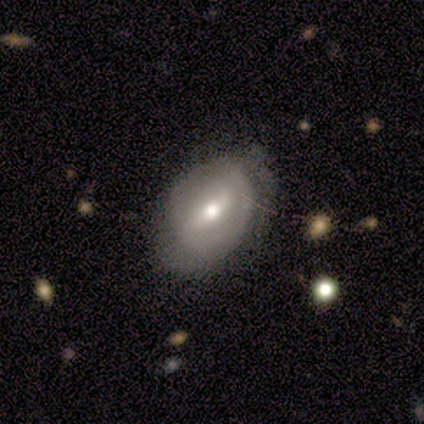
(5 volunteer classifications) Q: Smooth or featured?
A: featured or disk (60%); runner-up: smooth (40%)
Q: Edge-on disk?
A: no (67%); runner-up: yes (33%)
Q: Bar?
A: weak (50%); tied with: no (50%)
Q: Spiral arms?
A: yes (50%); tied with: no (50%)
Q: Spiral winding?
A: medium (100%)
Q: Spiral arm count?
A: 2 (100%)
Q: Bulge size?
A: moderate (100%)
Q: Merging?
A: none (80%); runner-up: major disturbance (20%)